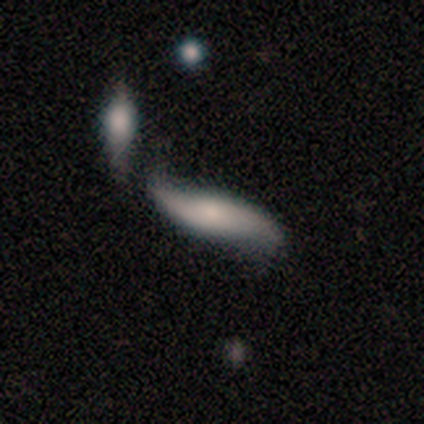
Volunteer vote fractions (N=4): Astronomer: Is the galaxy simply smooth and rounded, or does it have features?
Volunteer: smooth — 50%, tied with featured or disk at 50%.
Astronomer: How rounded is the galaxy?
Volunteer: cigar-shaped — 100%.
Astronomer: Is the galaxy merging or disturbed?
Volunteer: none — 50%.